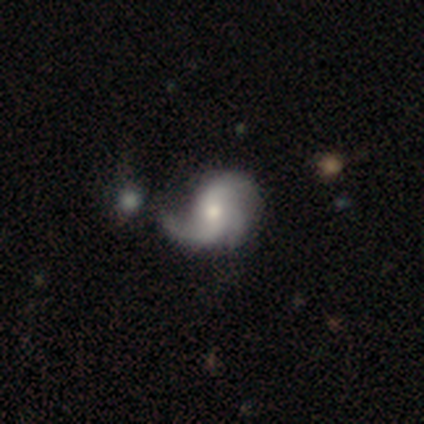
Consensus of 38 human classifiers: Smooth or featured?
  - featured or disk: 84% *
  - smooth: 16%
  - star or artifact: 0%
Edge-on disk?
  - no: 100% *
  - yes: 0%
Bar?
  - no: 62% *
  - weak: 31%
  - strong: 6%
Spiral arms?
  - yes: 91% *
  - no: 9%
Spiral winding?
  - loose: 48% *
  - medium: 34%
  - tight: 17%
Spiral arm count?
  - 3: 48% *
  - 2: 31%
  - 1: 10%
  - can't tell: 10%
  - 4: 0%
  - more than 4: 0%
Bulge size?
  - moderate: 69% *
  - large: 12%
  - small: 12%
  - none: 6%
  - dominant: 0%
Merging?
  - minor disturbance: 29% *
  - none: 21%
  - major disturbance: 8%
  - merger: 8%